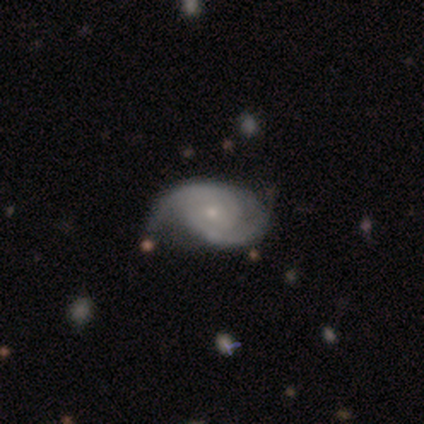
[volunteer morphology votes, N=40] Smooth or featured: featured or disk — 95% (smooth — 2%)
Edge-on disk: no — 100%
Bar: no — 82% (weak — 18%)
Spiral arms: yes — 100%
Spiral winding: tight — 55% (medium — 32%)
Spiral arm count: 2 — 87% (1 — 5%)
Bulge size: small — 66% (moderate — 29%)
Merging: none — 38% (minor disturbance — 33%)